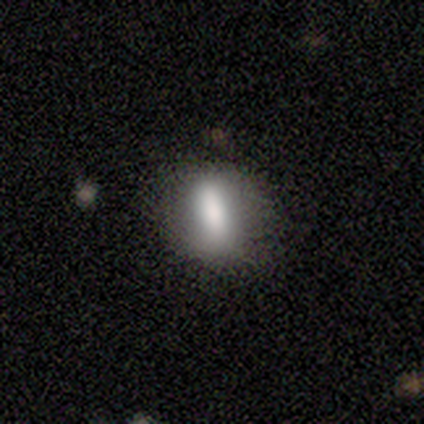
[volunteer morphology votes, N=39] Smooth or featured?
  - smooth: 74% *
  - featured or disk: 23%
  - star or artifact: 3%
How rounded?
  - in between: 76% *
  - round: 14%
  - cigar-shaped: 10%
Merging?
  - none: 79% *
  - minor disturbance: 13%
  - major disturbance: 5%
  - merger: 3%